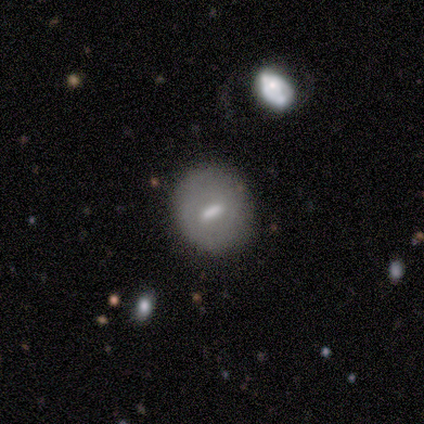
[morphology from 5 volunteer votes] smooth-or-featured: smooth: 40% (tied) | featured or disk: 40% (tied) | star or artifact: 20%
  how-rounded: round: 50% (tied) | in between: 50% (tied) | cigar-shaped: 0%
  merging: none: 100% | minor disturbance: 0% | major disturbance: 0% | merger: 0%